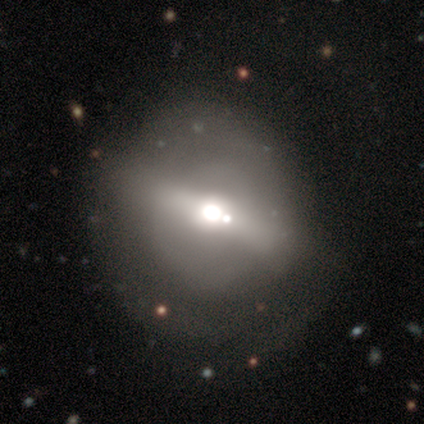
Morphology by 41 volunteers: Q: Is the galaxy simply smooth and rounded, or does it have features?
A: featured or disk — 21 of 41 (51%).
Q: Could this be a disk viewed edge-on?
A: no — 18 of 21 (86%).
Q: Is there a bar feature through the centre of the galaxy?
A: strong — 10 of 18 (56%).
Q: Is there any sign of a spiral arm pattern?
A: no — 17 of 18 (94%).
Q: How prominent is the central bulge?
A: large — 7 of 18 (39%, tied with moderate).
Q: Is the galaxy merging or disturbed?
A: none — 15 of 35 (43%).